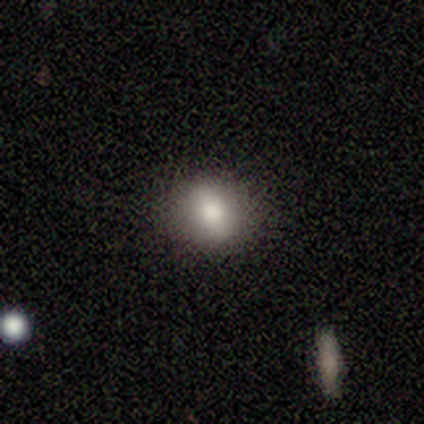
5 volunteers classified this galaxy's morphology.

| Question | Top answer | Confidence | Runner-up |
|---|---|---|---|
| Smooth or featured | smooth | 60% | featured or disk (40%) |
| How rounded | in between | 67% | round (33%) |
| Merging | none | 100% | — |